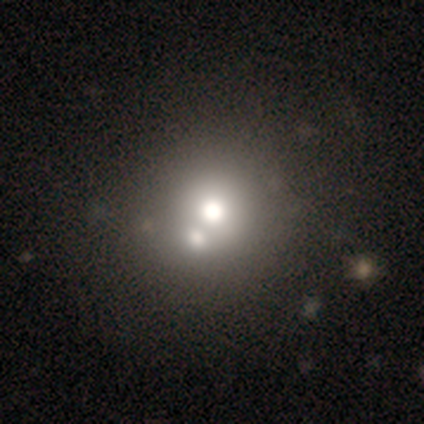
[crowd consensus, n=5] Overall: smooth (80%). How rounded: round (75%). Merging: none (40%, tied with minor disturbance).